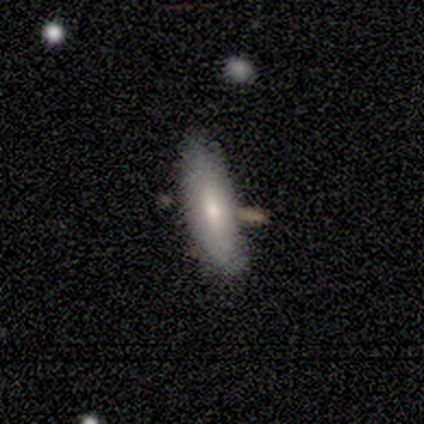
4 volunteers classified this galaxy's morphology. smooth 50% (tied), featured or disk 50% (tied), star or artifact 0%. Down the decision tree: how rounded — in between (100%); merging — none (75%).